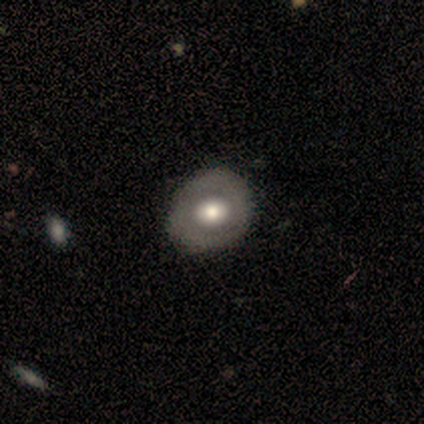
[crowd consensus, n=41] A smooth galaxy with no disk features (49%, tied with featured or disk) that is round (75%).

Vote fractions:
- Smooth or featured? smooth: 49% (tied) / featured or disk: 49% (tied) / star or artifact: 2%
- How rounded? round: 75% / in between: 20% / cigar-shaped: 5%
- Merging? none: 57% / minor disturbance: 15% / merger: 2% / major disturbance: 0%